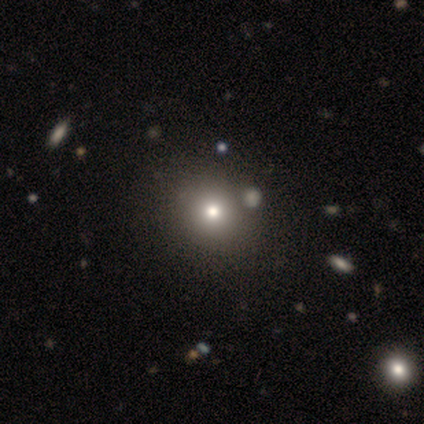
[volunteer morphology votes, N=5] smooth-or-featured: smooth: 60% | featured or disk: 20% | star or artifact: 20%
  how-rounded: round: 100% | in between: 0% | cigar-shaped: 0%
  merging: none: 75% | merger: 25% | minor disturbance: 0% | major disturbance: 0%